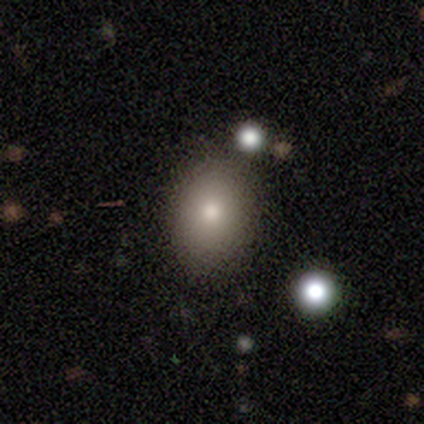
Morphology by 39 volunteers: Overall: smooth (82%). How rounded: in between (72%). Merging: none (78%).